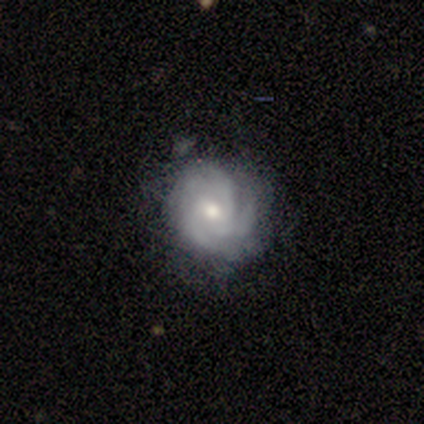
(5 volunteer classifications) smooth-or-featured: featured or disk: 80% | smooth: 20% | star or artifact: 0%
  disk-edge-on: no: 100% | yes: 0%
    bar: no: 50% | strong: 25% | weak: 25%
    has-spiral-arms: yes: 100% | no: 0%
      spiral-winding: tight: 50% (tied) | medium: 50% (tied) | loose: 0%
      spiral-arm-count: 4: 50% (tied) | can't tell: 50% (tied) | 1: 0% | 2: 0% | 3: 0% | more than 4: 0%
    bulge-size: moderate: 75% | small: 25% | dominant: 0% | large: 0% | none: 0%
  merging: none: 100% | minor disturbance: 0% | major disturbance: 0% | merger: 0%